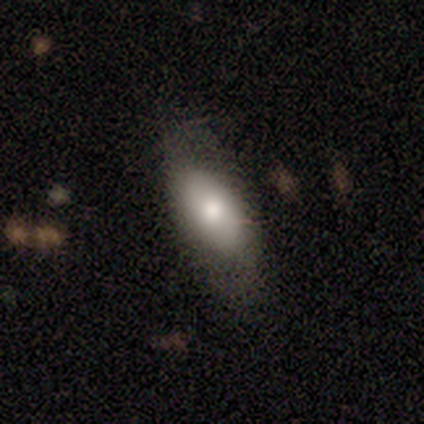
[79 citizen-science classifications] Q: Smooth or featured?
A: smooth (72%); runner-up: featured or disk (22%)
Q: How rounded?
A: in between (91%); runner-up: cigar-shaped (7%)
Q: Merging?
A: none (42%); runner-up: minor disturbance (4%)